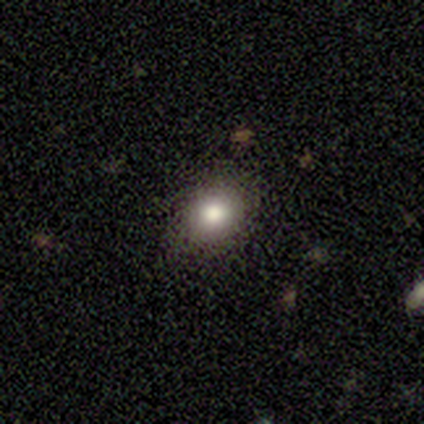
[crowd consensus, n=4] Smooth or featured?
  - star or artifact: 50% *
  - smooth: 25%
  - featured or disk: 25%